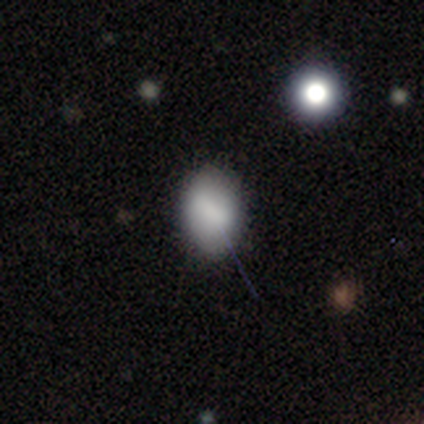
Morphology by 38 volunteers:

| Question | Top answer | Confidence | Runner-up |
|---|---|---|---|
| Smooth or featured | smooth | 76% | featured or disk (18%) |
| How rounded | in between | 93% | round (7%) |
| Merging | none | 89% | major disturbance (6%) |